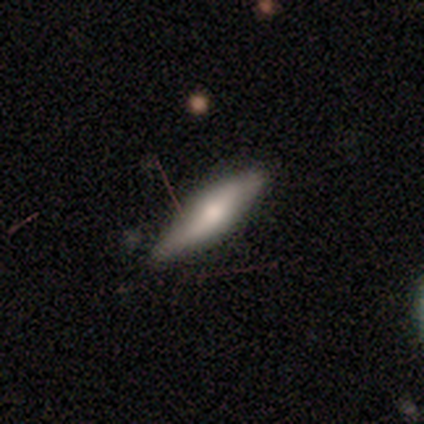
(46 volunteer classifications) Q: Smooth or featured?
A: smooth (61%); runner-up: featured or disk (30%)
Q: How rounded?
A: cigar-shaped (75%); runner-up: in between (25%)
Q: Merging?
A: none (69%); runner-up: minor disturbance (31%)